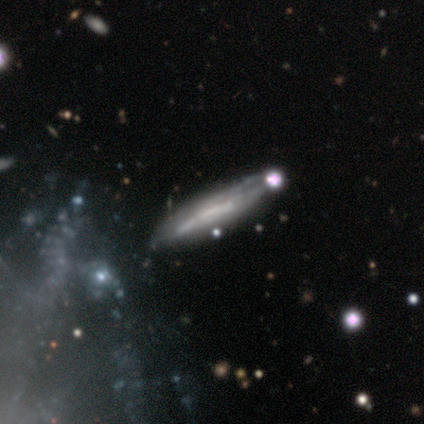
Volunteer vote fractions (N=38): Smooth or featured?
  - featured or disk: 66% *
  - smooth: 18%
  - star or artifact: 16%
Edge-on disk?
  - yes: 64% *
  - no: 36%
Edge-on bulge?
  - none: 69% *
  - boxy: 25%
  - rounded: 6%
Merging?
  - none: 56% *
  - merger: 22%
  - minor disturbance: 19%
  - major disturbance: 3%